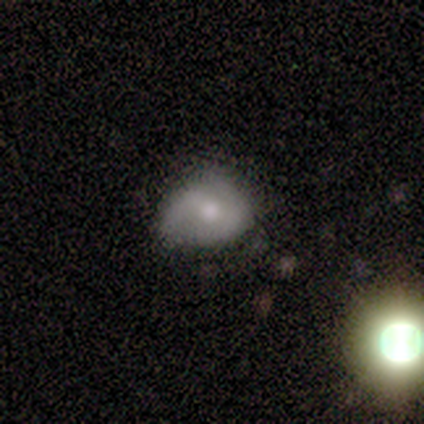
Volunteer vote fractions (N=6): Morphology: type=smooth (50%, tied with featured or disk); roundness=round (67%); merging=minor disturbance (67%).